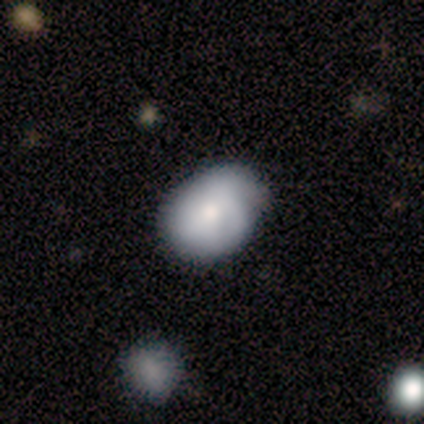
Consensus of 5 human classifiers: Smooth or featured?
  - smooth: 80% *
  - star or artifact: 20%
  - featured or disk: 0%
How rounded?
  - round: 50% * (tied)
  - in between: 50% * (tied)
  - cigar-shaped: 0%
Merging?
  - none: 75% *
  - minor disturbance: 25%
  - major disturbance: 0%
  - merger: 0%